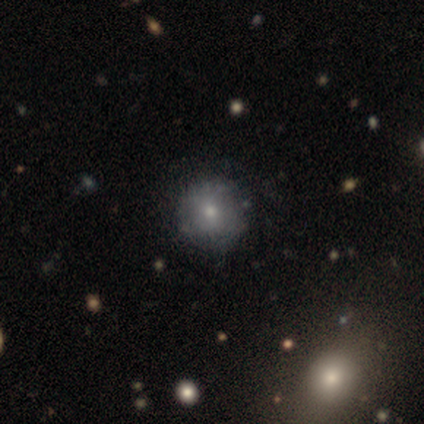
Smooth or featured?
  - smooth: 62% *
  - featured or disk: 25%
  - star or artifact: 12%
How rounded?
  - round: 60% *
  - in between: 40%
  - cigar-shaped: 0%
Merging?
  - none: 71% *
  - minor disturbance: 29%
  - major disturbance: 0%
  - merger: 0%